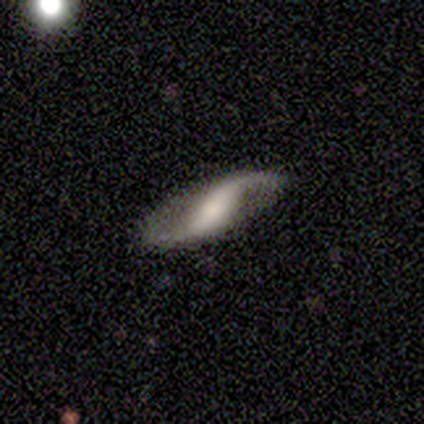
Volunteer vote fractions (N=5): Volunteers were most divided on "bar" (2-way tie): strong: 50%, no: 50%, weak: 0%; "bulge size" (2-way tie): small: 50%, none: 50%, dominant: 0%, large: 0%, moderate: 0%; "merging" (2-way tie): none: 50%, minor disturbance: 50%, major disturbance: 0%, merger: 0%. More confident: spiral arms — yes (100%); spiral winding — loose (100%); spiral arm count — 2 (100%); edge-on disk — no (67%); smooth or featured — featured or disk (60%).